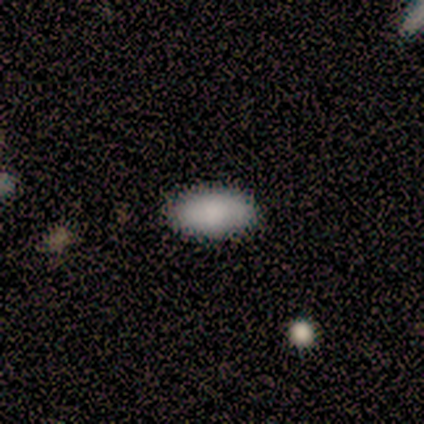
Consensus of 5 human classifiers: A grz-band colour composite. It shows a smooth galaxy with no disk features (100%) that is in between round and cigar-shaped (100%). Merging: none (80%).